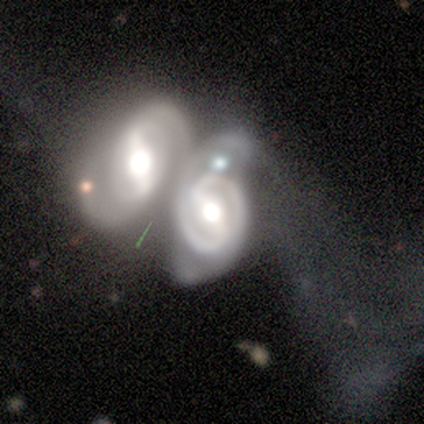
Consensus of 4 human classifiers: featured or disk 100%, smooth 0%, star or artifact 0%. Down the decision tree: edge-on disk — no (100%); bar — strong (75%); spiral arms — yes (75%); spiral arm count — 2 (100%); spiral winding — tight (33%, tied with medium and loose); bulge size — large (50%, tied with moderate); merging — merger (75%).